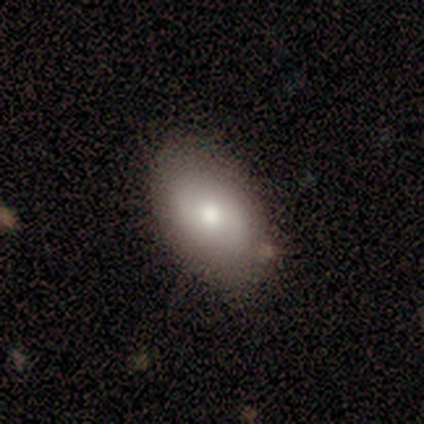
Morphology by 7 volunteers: A smooth galaxy with no disk features (43%, tied with featured or disk) that is in between round and cigar-shaped (100%). Merging: none (67%).